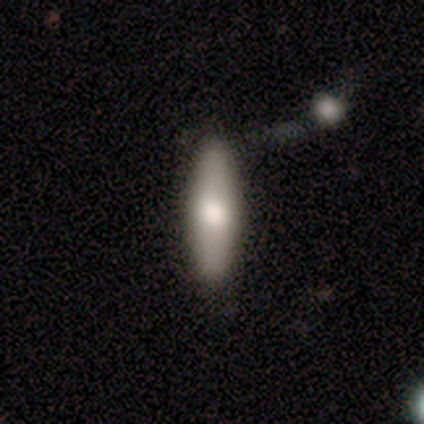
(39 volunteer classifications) Overall: smooth (82%). How rounded: cigar-shaped (53%; in between 47%). Merging: none (49%; merger 13%).